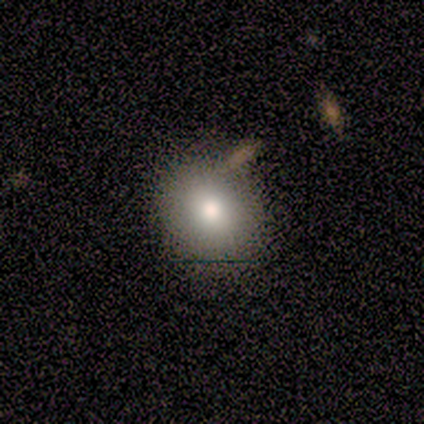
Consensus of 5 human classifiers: Smooth or featured? smooth (80%)
How rounded? in between (100%)
Merging? none (75%)